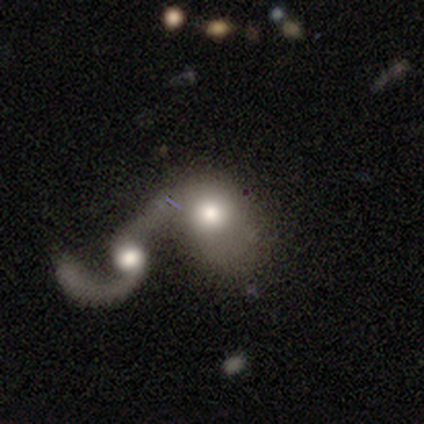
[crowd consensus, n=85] smooth-or-featured: featured or disk: 59% | smooth: 34% | star or artifact: 7%
  disk-edge-on: no: 98% | yes: 2%
    bar: no: 73% | weak: 14% | strong: 12%
    has-spiral-arms: yes: 57% | no: 43%
      spiral-winding: loose: 75% | medium: 18% | tight: 7%
      spiral-arm-count: 2: 46% | 1: 39% | can't tell: 14% | 3: 0% | 4: 0% | more than 4: 0%
    bulge-size: moderate: 65% | large: 18% | small: 10% | dominant: 4% | none: 2%
  merging: merger: 86% | none: 8% | major disturbance: 5% | minor disturbance: 1%